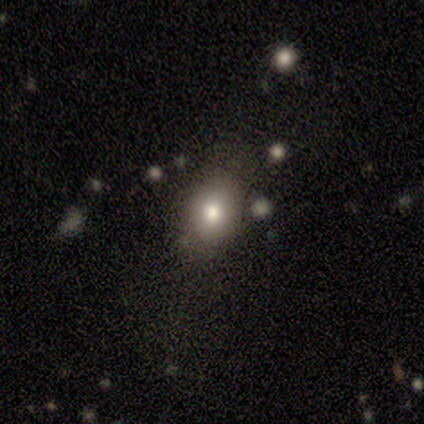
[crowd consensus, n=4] Smooth or featured? star or artifact (50%)